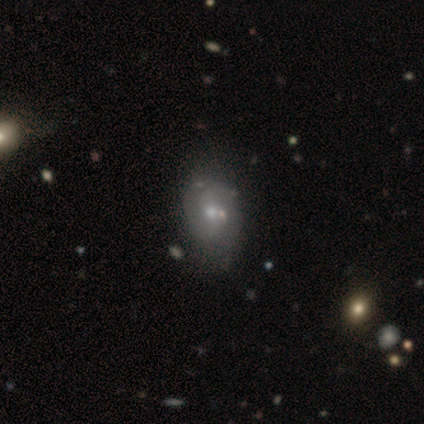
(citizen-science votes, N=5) Q: Smooth or featured?
A: smooth (60%); runner-up: featured or disk (20%)
Q: How rounded?
A: in between (100%)
Q: Merging?
A: minor disturbance (50%); runner-up: major disturbance (25%)